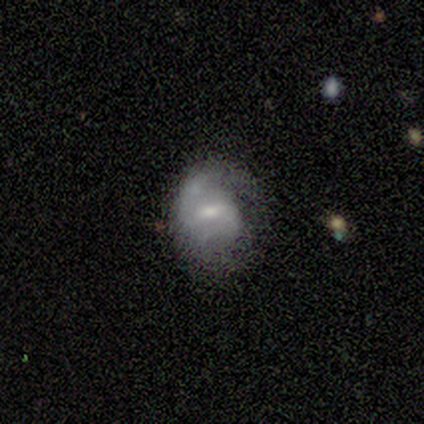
A featured or disk galaxy (83%) with a weak bar (80%), 1 (50%, tied with can't tell) medium (50%) spiral arms (80%) and a moderate central bulge (80%).

Vote fractions:
- Smooth or featured? featured or disk: 83% / smooth: 17% / star or artifact: 0%
- Edge-on disk? no: 100% / yes: 0%
- Bar? weak: 80% / strong: 20% / no: 0%
- Spiral arms? yes: 80% / no: 20%
- Spiral winding? medium: 50% / tight: 25% / loose: 25%
- Spiral arm count? 1: 50% (tied) / can't tell: 50% (tied) / 2: 0% / 3: 0% / 4: 0% / more than 4: 0%
- Bulge size? moderate: 80% / small: 20% / dominant: 0% / large: 0% / none: 0%
- Merging? none: 67% / major disturbance: 33% / minor disturbance: 0% / merger: 0%